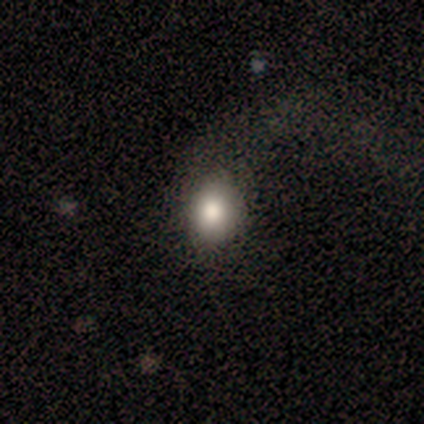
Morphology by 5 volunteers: Smooth or featured?
  - smooth: 100% *
  - featured or disk: 0%
  - star or artifact: 0%
How rounded?
  - round: 80% *
  - in between: 20%
  - cigar-shaped: 0%
Merging?
  - major disturbance: 80% *
  - none: 20%
  - minor disturbance: 0%
  - merger: 0%